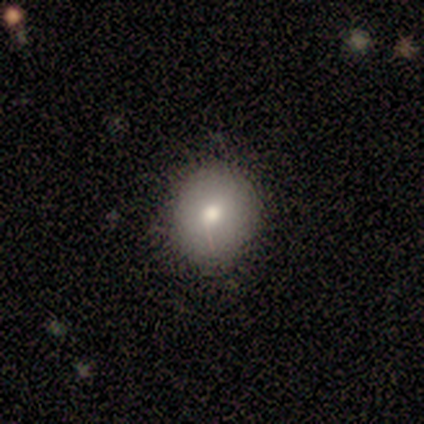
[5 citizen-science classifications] Overall: smooth (80%). How rounded: round (100%). Merging: none (75%).